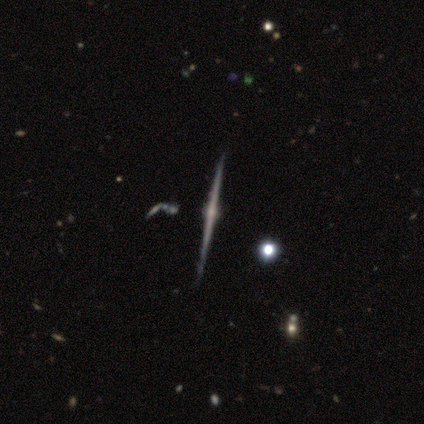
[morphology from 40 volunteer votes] featured or disk 98%, star or artifact 2%, smooth 0%. Down the decision tree: edge-on disk — yes (100%); edge-on bulge — rounded (90%); merging — none (74%).